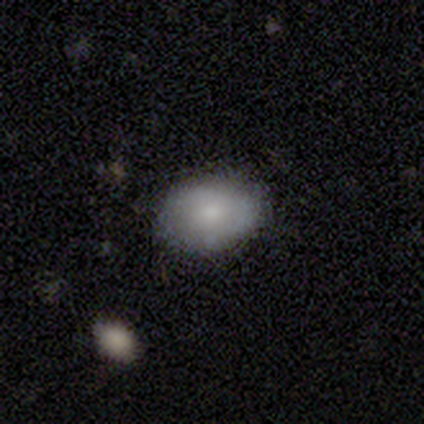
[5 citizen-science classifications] smooth-or-featured: smooth: 80% | featured or disk: 20% | star or artifact: 0%
  how-rounded: in between: 75% | round: 25% | cigar-shaped: 0%
  merging: none: 100% | minor disturbance: 0% | major disturbance: 0% | merger: 0%